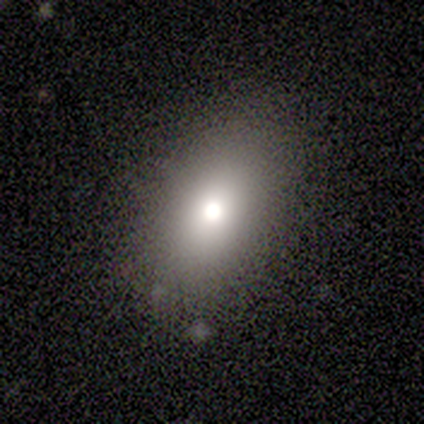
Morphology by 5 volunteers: This appears to be a smooth galaxy with no disk features (40%, tied with star or artifact) that is in between round and cigar-shaped (100%). Merging: none (67%).